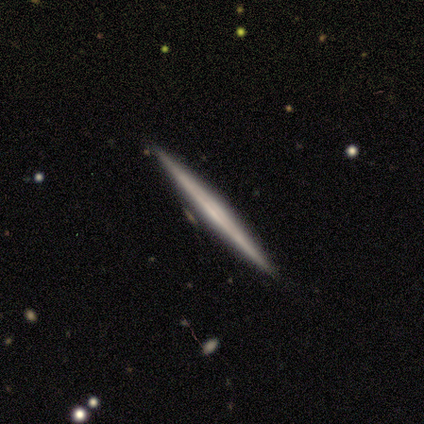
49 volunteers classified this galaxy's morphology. Smooth or featured: featured or disk — 71% (smooth — 24%)
Edge-on disk: yes — 100%
Edge-on bulge: none — 77% (rounded — 14%)
Merging: none — 89% (minor disturbance — 11%)